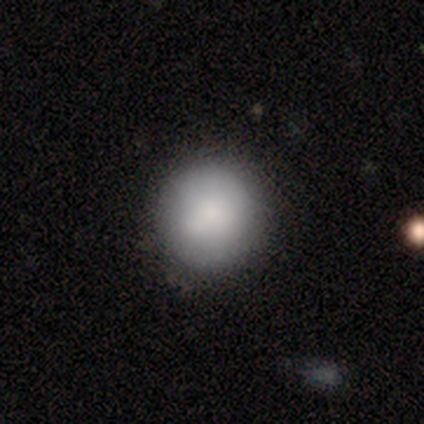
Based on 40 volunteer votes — A smooth galaxy with no disk features (90%) that is round (100%).

Vote fractions:
- Smooth or featured? smooth: 90% / featured or disk: 5% / star or artifact: 5%
- How rounded? round: 100% / in between: 0% / cigar-shaped: 0%
- Merging? none: 74% / minor disturbance: 13% / merger: 11% / major disturbance: 3%